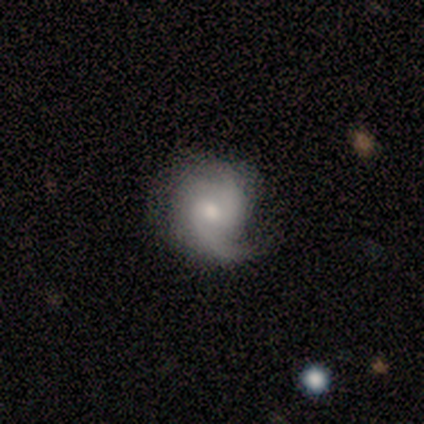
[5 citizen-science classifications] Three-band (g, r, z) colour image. It shows a featured or disk galaxy (80%) with no bar (100%), 2 (100%) tight (33%, tied with medium and loose) spiral arms (100%) and a small central bulge (67%). Merging: major disturbance (50%).